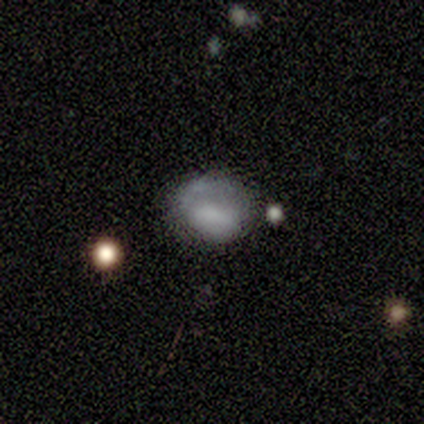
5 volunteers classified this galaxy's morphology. Smooth or featured? smooth (80%)
How rounded? round (50%, tied with in between)
Merging? minor disturbance (50%)